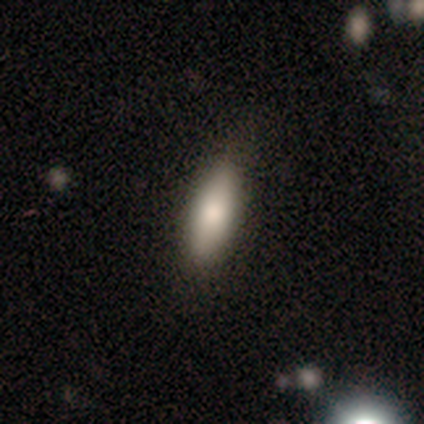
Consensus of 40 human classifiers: This appears to be a smooth galaxy with no disk features (90%) that is in between round and cigar-shaped (50%). Merging: none (85%).